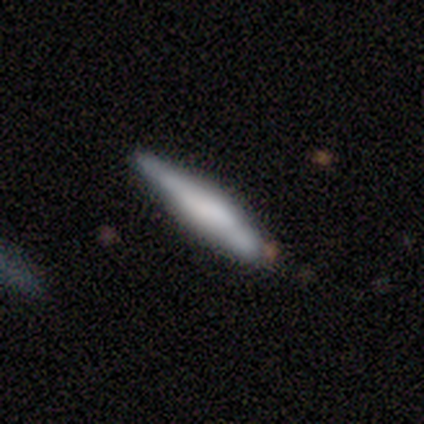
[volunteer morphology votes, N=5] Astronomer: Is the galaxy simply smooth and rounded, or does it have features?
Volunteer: featured or disk — 60% (runner-up: smooth, 40%).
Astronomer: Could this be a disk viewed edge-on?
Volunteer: yes — 67%.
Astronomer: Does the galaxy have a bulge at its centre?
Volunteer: none — 50%, tied with rounded at 50%.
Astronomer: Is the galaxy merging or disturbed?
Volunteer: none — 100%.